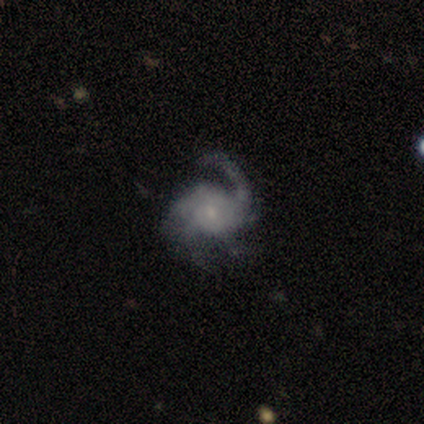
Q: Smooth or featured?
A: featured or disk (93%); runner-up: star or artifact (7%)
Q: Edge-on disk?
A: no (100%)
Q: Bar?
A: no (85%); runner-up: strong (15%)
Q: Spiral arms?
A: yes (92%); runner-up: no (8%)
Q: Spiral winding?
A: tight (33%); tied with: medium (33%); loose (33%)
Q: Spiral arm count?
A: 1 (42%); runner-up: 3 (17%)
Q: Bulge size?
A: small (77%); runner-up: large (8%)
Q: Merging?
A: none (46%); runner-up: major disturbance (38%)